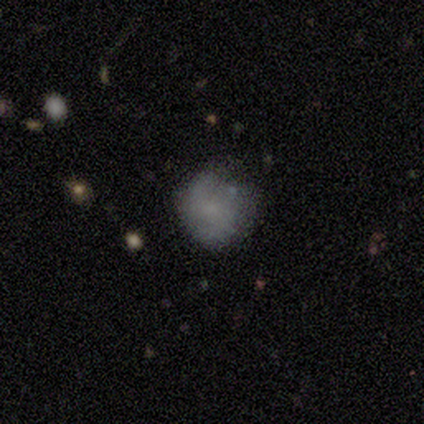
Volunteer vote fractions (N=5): Overall: featured or disk (60%; smooth 20%). Edge-on disk: no (100%). Bar: no (100%). Spiral arms: yes (67%; no 33%). Spiral arm count: 2 (100%). Spiral winding: medium (100%). Bulge size: none (100%). Merging: none (50%, tied with minor disturbance).